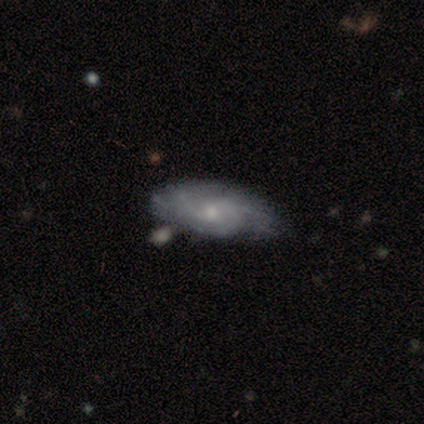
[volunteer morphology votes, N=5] A featured or disk galaxy (80%) with no bar (75%), tight (67%) spiral arms (75%) and a moderate central bulge (50%, tied with small). Merging: minor disturbance (60%).